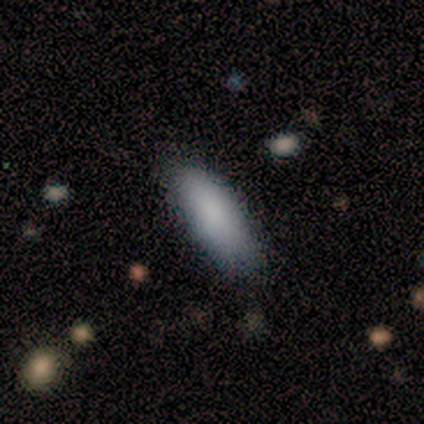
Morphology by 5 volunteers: smooth 80%, featured or disk 20%, star or artifact 0%. Down the decision tree: how rounded — cigar-shaped (100%); merging — none (60%).